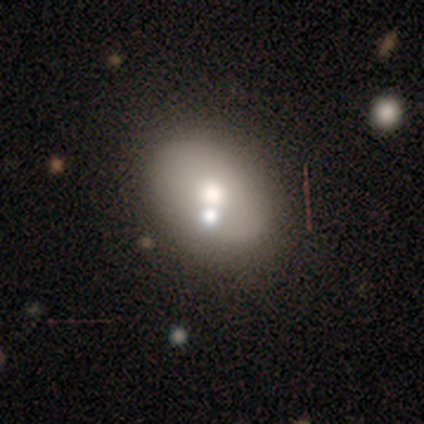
Smooth or featured? featured or disk (71%)
Edge-on disk? no (100%)
Bar? no (80%)
Spiral arms? no (100%)
Bulge size? moderate (80%)
Merging? none (57%)